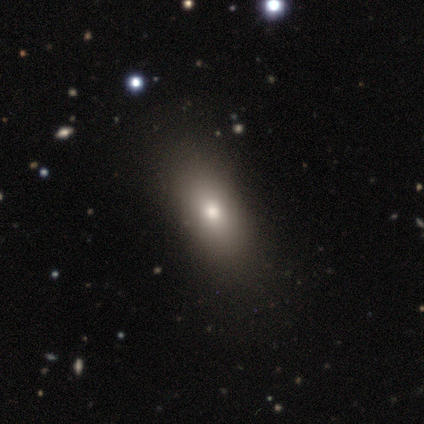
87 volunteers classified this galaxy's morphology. This is likely a smooth galaxy (72%). How rounded: likely in between (78%). Merging: likely none (76%).